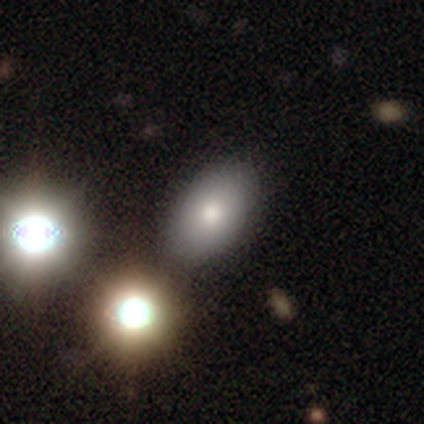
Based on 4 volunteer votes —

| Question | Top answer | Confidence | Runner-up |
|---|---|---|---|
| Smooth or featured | featured or disk | 75% | star or artifact (25%) |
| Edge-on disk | no | 67% | yes (33%) |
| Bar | no | 100% | — |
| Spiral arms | no | 100% | — |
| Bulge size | moderate | 100% | — |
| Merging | merger | 67% | none (33%) |